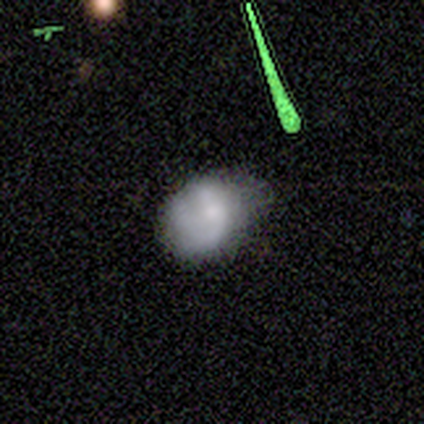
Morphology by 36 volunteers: A smooth galaxy with no disk features (67%) that is round (58%). Merging: minor disturbance (55%).